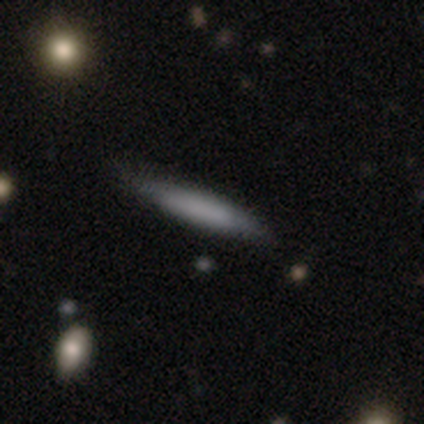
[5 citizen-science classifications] Smooth or featured?
  - smooth: 100% *
  - featured or disk: 0%
  - star or artifact: 0%
How rounded?
  - cigar-shaped: 100% *
  - round: 0%
  - in between: 0%
Merging?
  - none: 80% *
  - minor disturbance: 20%
  - major disturbance: 0%
  - merger: 0%